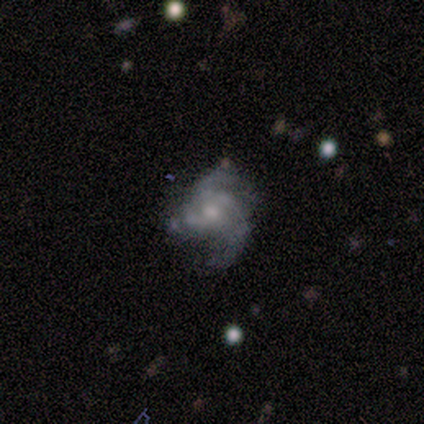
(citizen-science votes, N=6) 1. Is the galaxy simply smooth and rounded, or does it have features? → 100% featured or disk, 0% smooth, 0% star or artifact.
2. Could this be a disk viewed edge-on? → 100% no, 0% yes.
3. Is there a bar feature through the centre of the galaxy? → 83% no, 17% weak, 0% strong.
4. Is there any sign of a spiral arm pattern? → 83% yes, 17% no.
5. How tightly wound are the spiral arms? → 60% medium, 40% loose, 0% tight.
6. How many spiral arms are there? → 40% 3 (tied), 40% can't tell (tied), 20% 2, 0% 1, 0% 4, 0% more than 4.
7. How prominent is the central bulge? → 67% small, 33% moderate, 0% dominant, 0% large, 0% none.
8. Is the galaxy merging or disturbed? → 33% none (tied), 33% minor disturbance (tied), 33% major disturbance (tied), 0% merger.